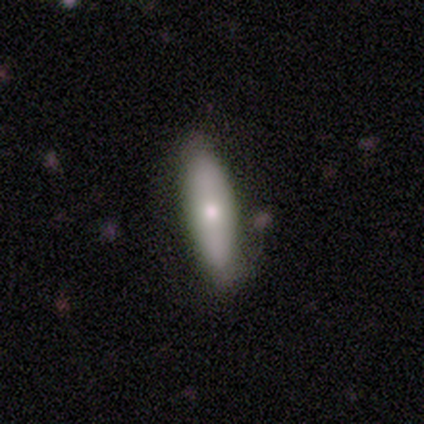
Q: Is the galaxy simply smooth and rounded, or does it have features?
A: smooth — 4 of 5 (80%).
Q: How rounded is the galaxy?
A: in between — 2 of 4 (50%, tied with cigar-shaped).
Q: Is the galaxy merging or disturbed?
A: none — 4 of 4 (100%).